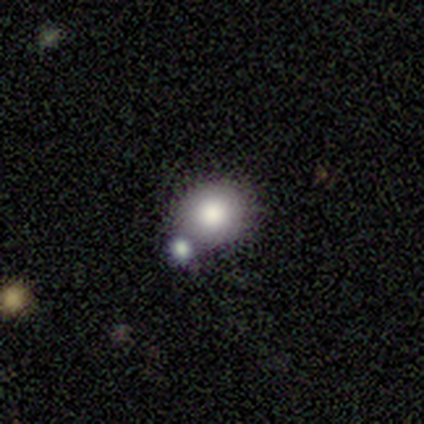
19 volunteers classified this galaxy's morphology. This is clearly a smooth galaxy (89%). How rounded: likely round (76%). Merging: possibly none (56%).